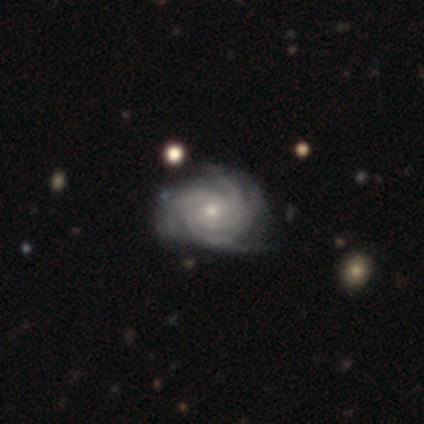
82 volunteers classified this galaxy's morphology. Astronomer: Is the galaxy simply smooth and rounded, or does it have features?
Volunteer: featured or disk — 98%.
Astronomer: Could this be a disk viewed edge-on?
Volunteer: no — 99%.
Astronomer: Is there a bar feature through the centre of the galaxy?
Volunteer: no — 76%.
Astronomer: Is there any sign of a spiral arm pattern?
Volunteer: yes — 100%.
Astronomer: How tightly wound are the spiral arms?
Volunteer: tight — 80%.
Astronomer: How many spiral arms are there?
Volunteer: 4 — 53%.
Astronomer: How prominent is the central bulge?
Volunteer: small — 75%.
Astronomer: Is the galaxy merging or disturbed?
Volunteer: none — 32% (runner-up: minor disturbance, 19%).